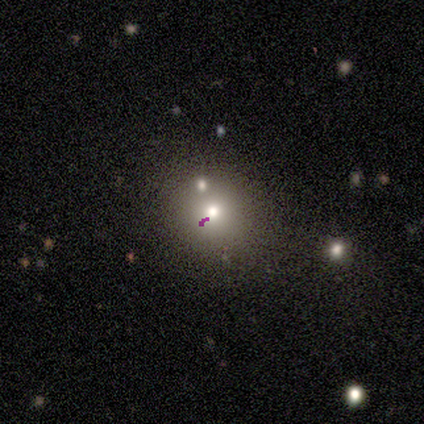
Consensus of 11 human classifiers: Smooth or featured? 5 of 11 (45%) said smooth. How rounded? 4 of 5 (80%) said round. Merging? 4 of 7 (57%) said none.